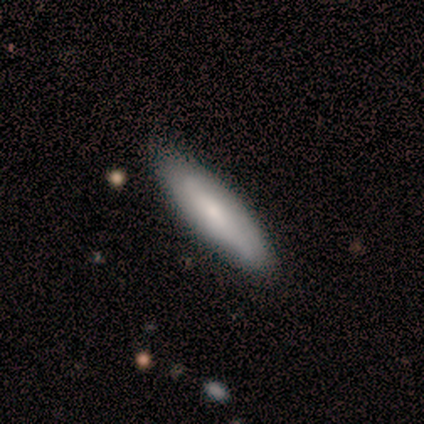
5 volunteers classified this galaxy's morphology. Smooth or featured? 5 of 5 (100%) said smooth. How rounded? 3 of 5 (60%) said cigar-shaped. Merging? 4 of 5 (80%) said none.